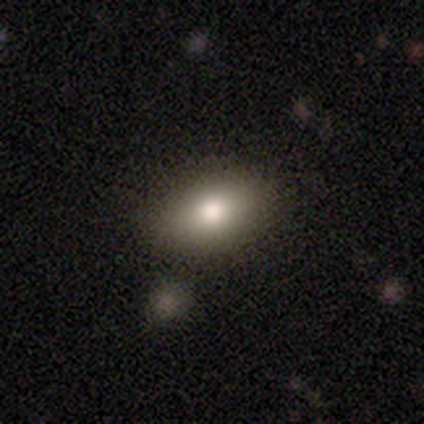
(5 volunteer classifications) A smooth galaxy with no disk features (100%) that is in between round and cigar-shaped (100%). Merging: minor disturbance (60%).